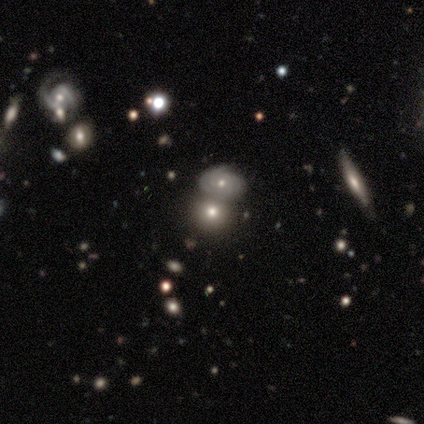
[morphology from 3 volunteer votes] A featured or disk galaxy (67%) viewed edge-on (50%, tied with no) with no central bulge (100%).

Vote fractions:
- Smooth or featured? featured or disk: 67% / smooth: 33% / star or artifact: 0%
- Edge-on disk? yes: 50% (tied) / no: 50% (tied)
- Edge-on bulge? none: 100% / boxy: 0% / rounded: 0%
- Merging? none: 33% (tied) / minor disturbance: 33% (tied) / merger: 33% (tied) / major disturbance: 0%